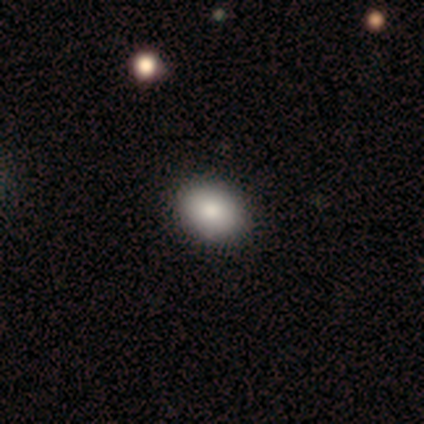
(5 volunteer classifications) Smooth or featured? 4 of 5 (80%) said smooth. How rounded? 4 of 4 (100%) said in between. Merging? 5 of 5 (100%) said none.